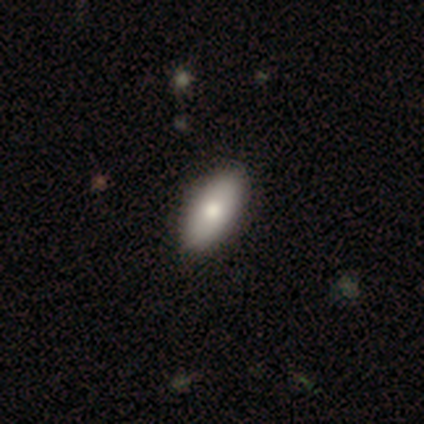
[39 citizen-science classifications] This is likely a smooth galaxy (79%). How rounded: clearly in between (97%). Merging: possibly none (59%).